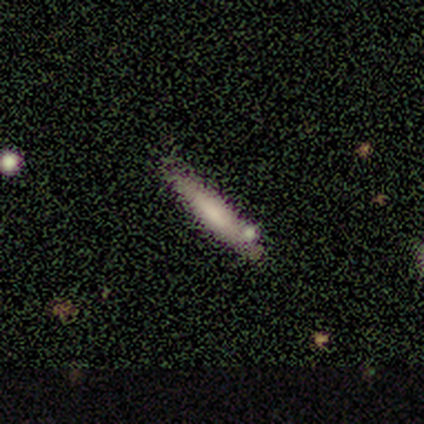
Smooth or featured?
  - smooth: 100% *
  - featured or disk: 0%
  - star or artifact: 0%
How rounded?
  - cigar-shaped: 100% *
  - round: 0%
  - in between: 0%
Merging?
  - none: 100% *
  - minor disturbance: 0%
  - major disturbance: 0%
  - merger: 0%